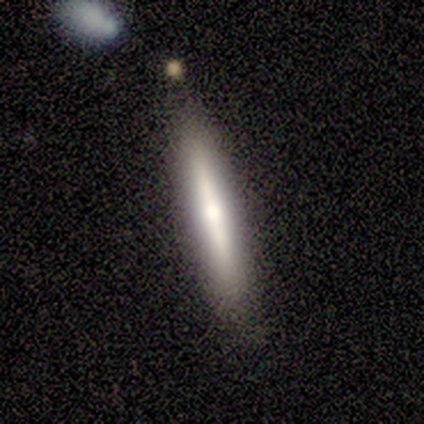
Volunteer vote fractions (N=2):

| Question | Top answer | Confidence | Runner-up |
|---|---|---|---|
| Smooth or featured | smooth | 50% | tied: featured or disk (50%) |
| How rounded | cigar-shaped | 100% | — |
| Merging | none | 100% | — |